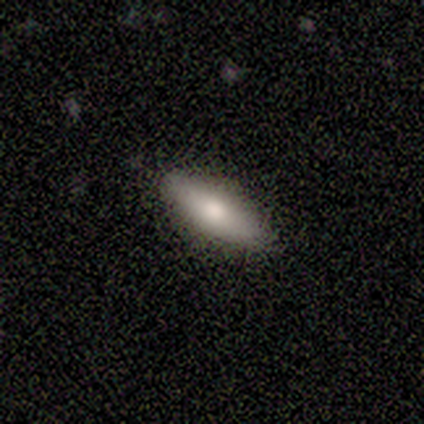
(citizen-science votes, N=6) A smooth galaxy with no disk features (67%) that is in between round and cigar-shaped (50%, tied with cigar-shaped). Merging: none (67%).